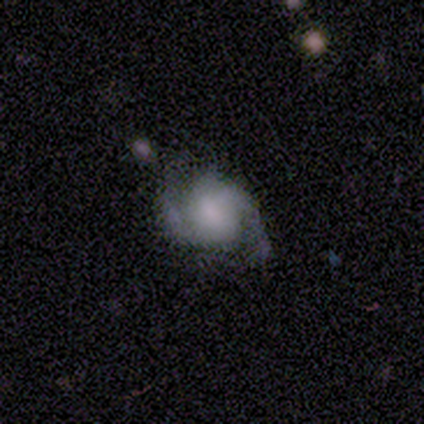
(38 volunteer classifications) Overall: featured or disk (79%). Edge-on disk: no (97%). Bar: no (55%; weak 28%). Spiral arms: yes (90%). Spiral arm count: 2 (100%). Spiral winding: medium (42%; loose 35%). Bulge size: none (41%; moderate 21%). Merging: none (66%; minor disturbance 29%).